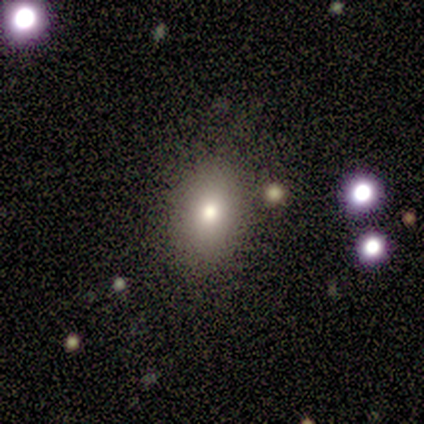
Smooth or featured: smooth — 60% (star or artifact — 40%)
How rounded: in between — 67% (round — 33%)
Merging: none — 100%